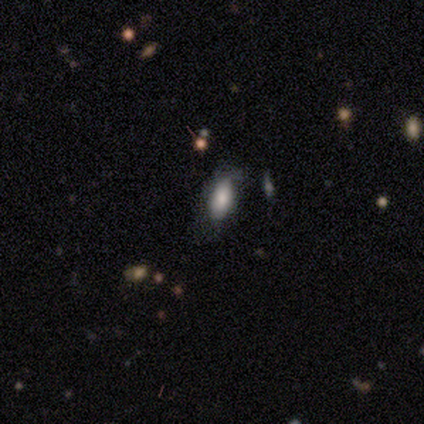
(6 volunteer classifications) A smooth galaxy with no disk features (83%) that is in between round and cigar-shaped (100%). Merging: none (67%).